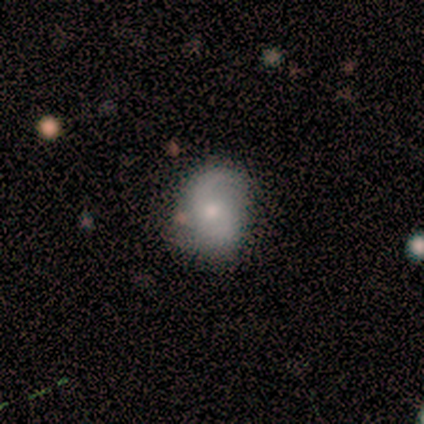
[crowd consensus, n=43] Volunteers were most divided on "bulge size" (2-way tie): moderate: 48%, small: 48%, large: 5%, dominant: 0%, none: 0%. More confident: edge-on disk — no (95%); spiral arms — yes (90%); bar — no (76%); spiral arm count — 2 (74%); merging — none (63%); spiral winding — medium (53%); smooth or featured — featured or disk (51%).